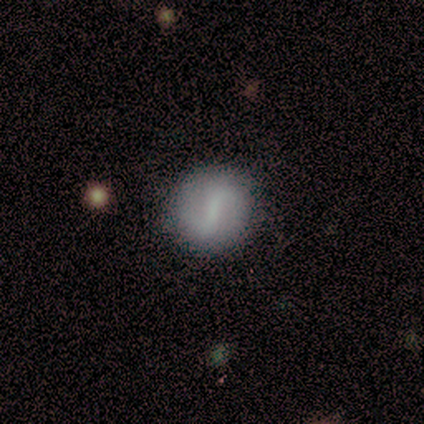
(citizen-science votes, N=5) A featured or disk galaxy (60%) with a weak bar (67%), 2 (100%) tight (50%, tied with medium) spiral arms (67%) and a small central bulge (100%). Merging: none (100%).